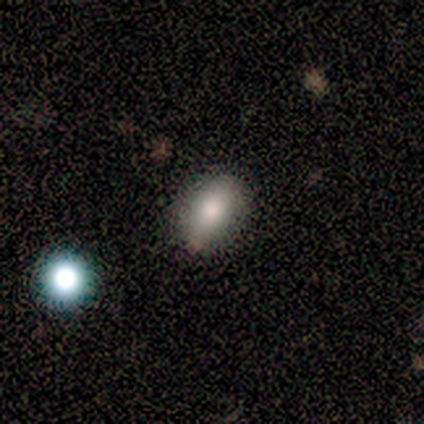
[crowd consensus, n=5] This is likely a smooth galaxy (60%). How rounded: clearly in between (100%). Merging: clearly none (100%).